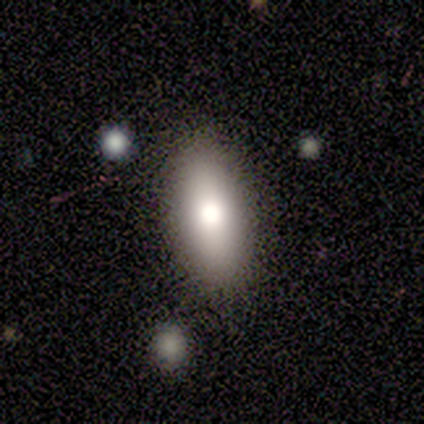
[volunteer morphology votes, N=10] Smooth or featured? 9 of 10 (90%) said smooth. How rounded? 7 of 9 (78%) said in between. Merging? 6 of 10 (60%) said none.